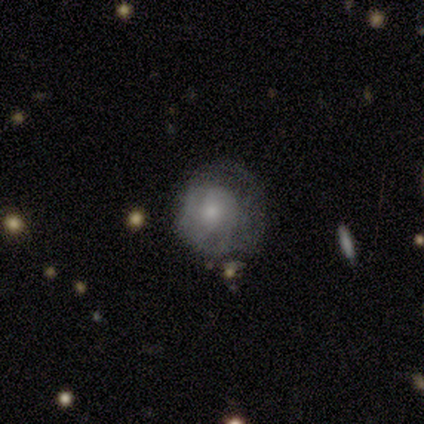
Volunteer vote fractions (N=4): smooth-or-featured: featured or disk: 75% | smooth: 25% | star or artifact: 0%
  disk-edge-on: no: 100% | yes: 0%
    bar: no: 100% | strong: 0% | weak: 0%
    has-spiral-arms: yes: 100% | no: 0%
      spiral-winding: tight: 67% | medium: 33% | loose: 0%
      spiral-arm-count: can't tell: 67% | 2: 33% | 1: 0% | 3: 0% | 4: 0% | more than 4: 0%
    bulge-size: moderate: 67% | small: 33% | dominant: 0% | large: 0% | none: 0%
  merging: none: 75% | minor disturbance: 25% | major disturbance: 0% | merger: 0%